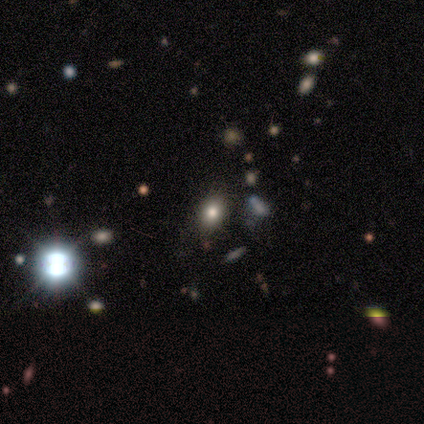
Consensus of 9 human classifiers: smooth_or_featured: smooth (p=0.67) [alt: star or artifact p=0.22]
how_rounded: in between (p=0.83) [alt: round p=0.17]
merging: none (p=0.71) [alt: minor disturbance p=0.29]